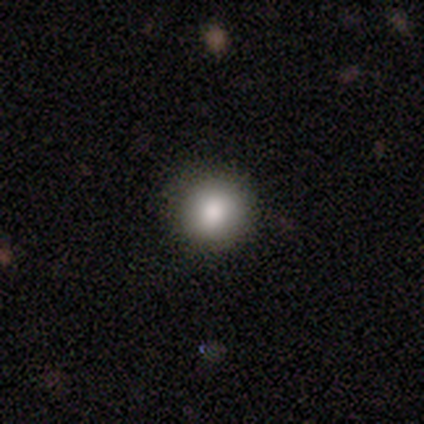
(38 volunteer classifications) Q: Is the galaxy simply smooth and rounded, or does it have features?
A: smooth — 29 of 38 (76%).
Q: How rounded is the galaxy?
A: round — 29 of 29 (100%).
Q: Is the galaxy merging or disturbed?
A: none — 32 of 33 (97%).